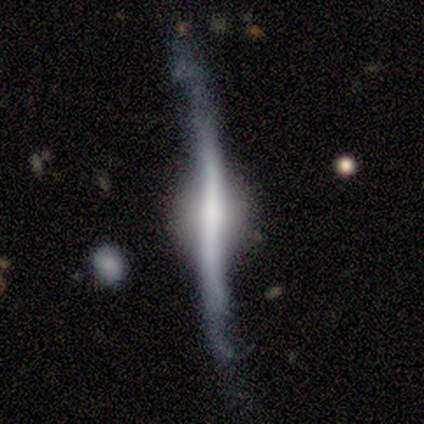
Volunteers were most divided on "smooth or featured": featured or disk: 60%, smooth: 20%, star or artifact: 20%. More confident: edge-on disk — yes (100%); edge-on bulge — rounded (100%); merging — none (75%).